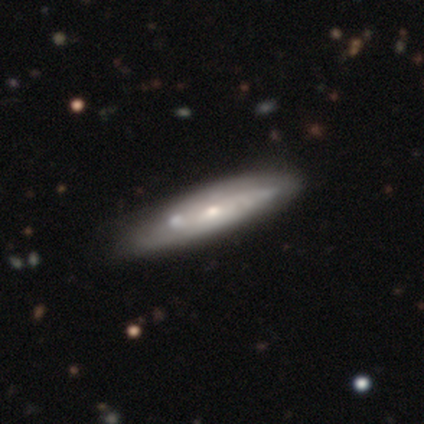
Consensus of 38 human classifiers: Smooth or featured?
  - featured or disk: 82% *
  - smooth: 18%
  - star or artifact: 0%
Edge-on disk?
  - no: 65% *
  - yes: 35%
Bar?
  - no: 80% *
  - weak: 15%
  - strong: 5%
Spiral arms?
  - yes: 55% *
  - no: 45%
Spiral winding?
  - medium: 55% *
  - tight: 36%
  - loose: 9%
Spiral arm count?
  - can't tell: 73% *
  - 2: 27%
  - 1: 0%
  - 3: 0%
  - 4: 0%
  - more than 4: 0%
Bulge size?
  - small: 50% *
  - moderate: 45%
  - large: 5%
  - dominant: 0%
  - none: 0%
Merging?
  - none: 39% *
  - minor disturbance: 16%
  - merger: 13%
  - major disturbance: 3%